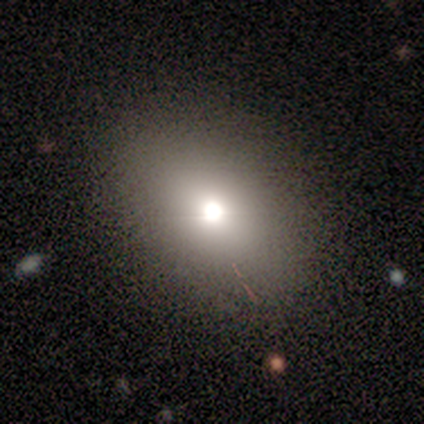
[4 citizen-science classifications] Smooth or featured? 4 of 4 (100%) said smooth. How rounded? 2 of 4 (50%, tied with in between) said round. Merging? 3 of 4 (75%) said none.